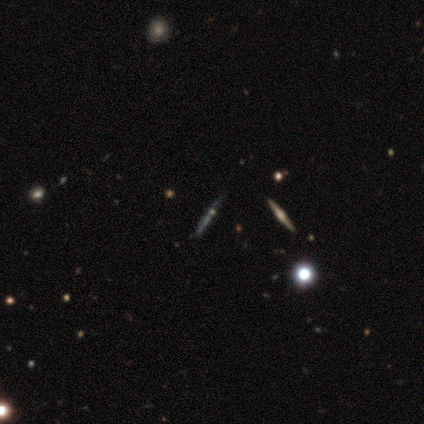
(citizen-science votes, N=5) A featured or disk galaxy (80%) viewed edge-on (100%) with a rounded central bulge (100%). Merging: none (60%).